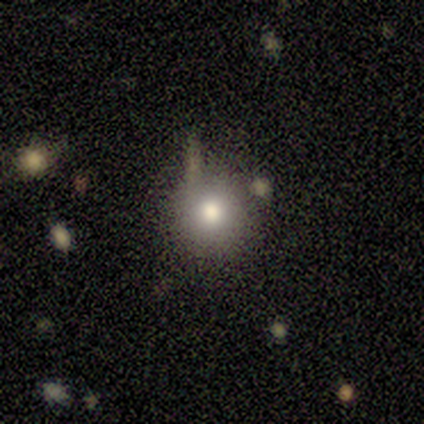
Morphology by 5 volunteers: Overall: star or artifact (60%; smooth 40%).